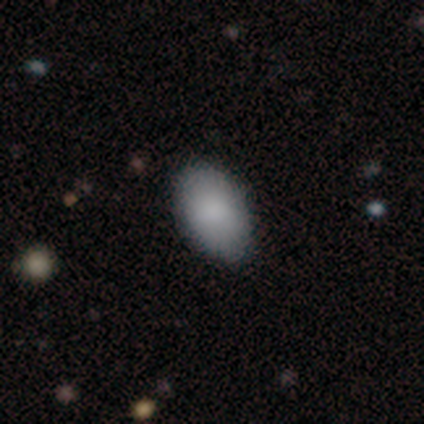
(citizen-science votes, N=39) Smooth or featured: smooth — 82% (featured or disk — 10%)
How rounded: in between — 91% (round — 9%)
Merging: none — 89% (minor disturbance — 8%)